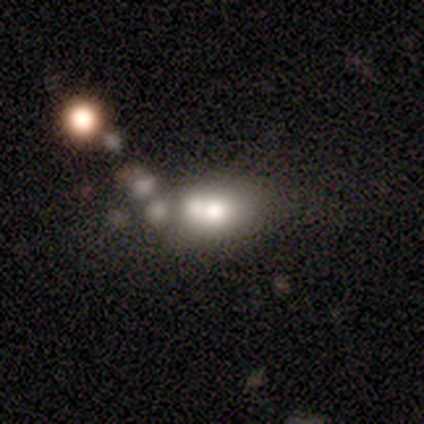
Morphology: type=featured or disk (60%); edge-on=no (67%); bar=strong (50%, tied with no); spiral arms=no (100%); bulge=large (100%); merging=minor disturbance (40%).